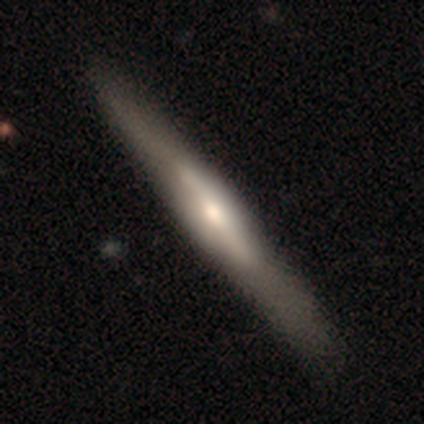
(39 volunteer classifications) Q: Smooth or featured?
A: featured or disk (67%); runner-up: smooth (31%)
Q: Edge-on disk?
A: yes (96%); runner-up: no (4%)
Q: Edge-on bulge?
A: rounded (68%); runner-up: boxy (20%)
Q: Merging?
A: none (55%); runner-up: minor disturbance (16%)